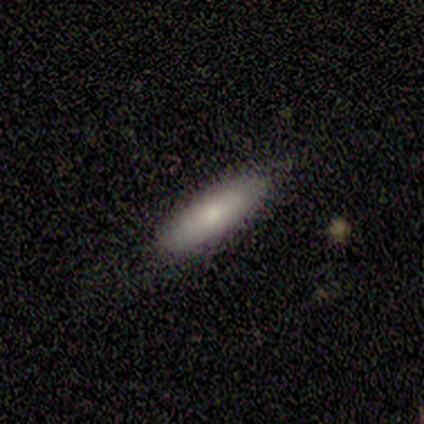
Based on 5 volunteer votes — Smooth or featured? smooth (80%)
How rounded? in between (50%, tied with cigar-shaped)
Merging? none (100%)